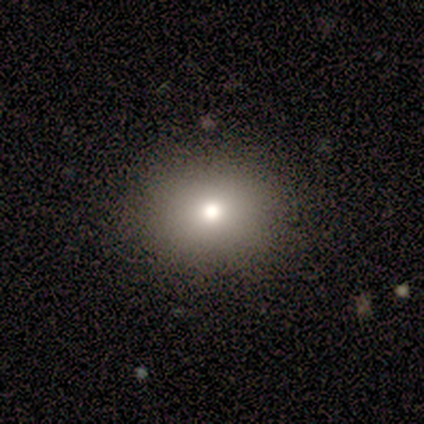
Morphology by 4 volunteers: A smooth galaxy with no disk features (50%, tied with star or artifact) that is round (50%, tied with in between). Merging: none (50%, tied with minor disturbance).